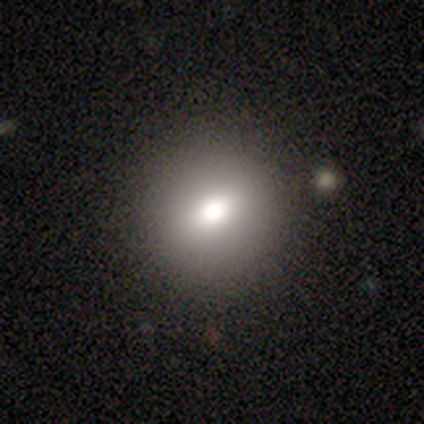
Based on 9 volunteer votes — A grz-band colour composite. It shows a smooth galaxy with no disk features (78%) that is round (86%). Merging: none (88%).